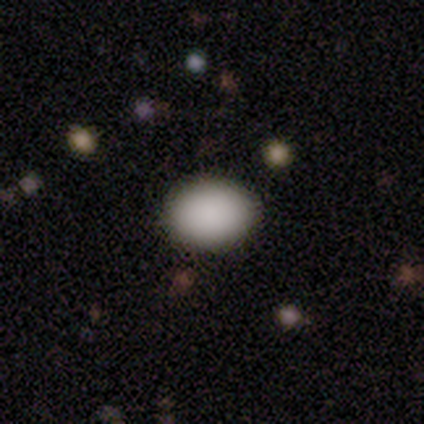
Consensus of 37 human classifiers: Smooth or featured?
  - smooth: 92% *
  - star or artifact: 5%
  - featured or disk: 3%
How rounded?
  - in between: 68% *
  - round: 32%
  - cigar-shaped: 0%
Merging?
  - none: 100% *
  - minor disturbance: 0%
  - major disturbance: 0%
  - merger: 0%